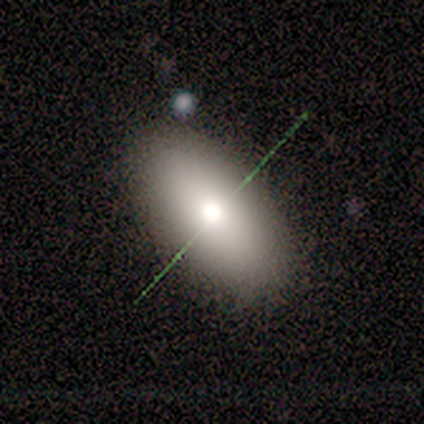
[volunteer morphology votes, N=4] smooth 50%, featured or disk 25%, star or artifact 25%. Down the decision tree: how rounded — in between (100%); merging — none (67%).